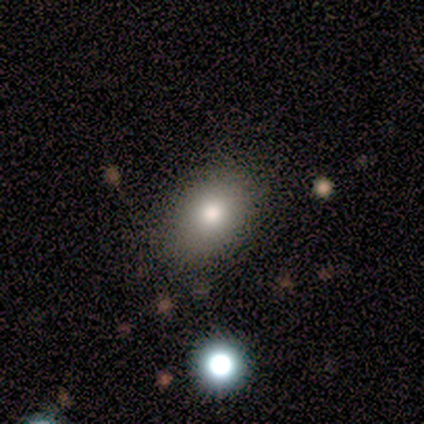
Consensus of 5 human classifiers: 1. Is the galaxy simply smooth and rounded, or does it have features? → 80% smooth, 20% featured or disk, 0% star or artifact.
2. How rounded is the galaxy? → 75% in between, 25% round, 0% cigar-shaped.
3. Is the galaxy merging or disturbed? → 80% none, 20% minor disturbance, 0% major disturbance, 0% merger.